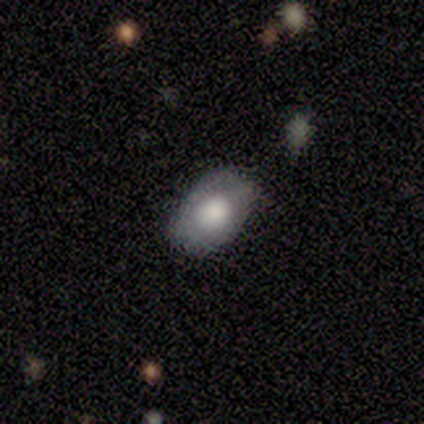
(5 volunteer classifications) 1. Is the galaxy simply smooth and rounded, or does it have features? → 60% smooth, 20% featured or disk, 20% star or artifact.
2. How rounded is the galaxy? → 100% in between, 0% round, 0% cigar-shaped.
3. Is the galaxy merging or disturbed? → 100% none, 0% minor disturbance, 0% major disturbance, 0% merger.